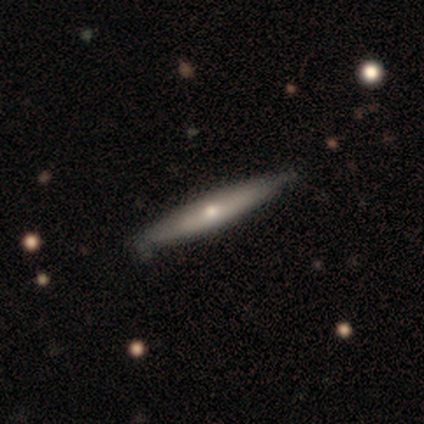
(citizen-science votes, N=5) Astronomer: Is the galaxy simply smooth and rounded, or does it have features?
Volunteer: featured or disk — 80%.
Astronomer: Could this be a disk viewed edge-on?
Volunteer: yes — 100%.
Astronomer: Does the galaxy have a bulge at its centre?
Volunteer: none — 50%, tied with rounded at 50%.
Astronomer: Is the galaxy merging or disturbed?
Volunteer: none — 100%.